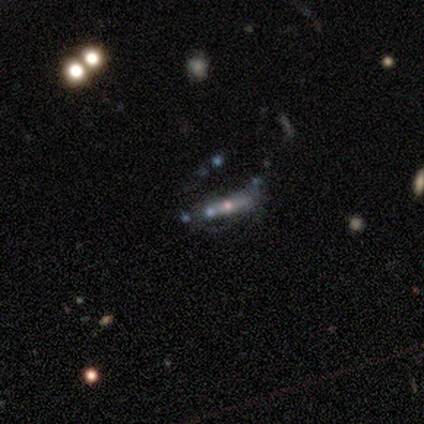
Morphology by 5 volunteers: smooth 60%, featured or disk 20%, star or artifact 20%. Down the decision tree: how rounded — cigar-shaped (67%); merging — none (75%).